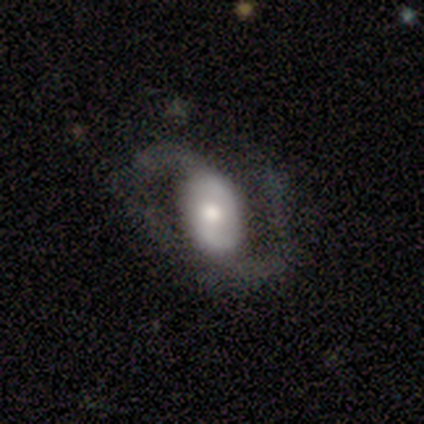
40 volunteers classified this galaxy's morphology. Volunteers were most divided on "bar": no: 38%, strong: 31%, weak: 31%. Remaining: spiral arm count — 2 (97%); edge-on disk — no (94%); spiral arms — yes (91%); smooth or featured — featured or disk (85%); spiral winding — loose (48%); merging — none (44%); bulge size — moderate (41%).